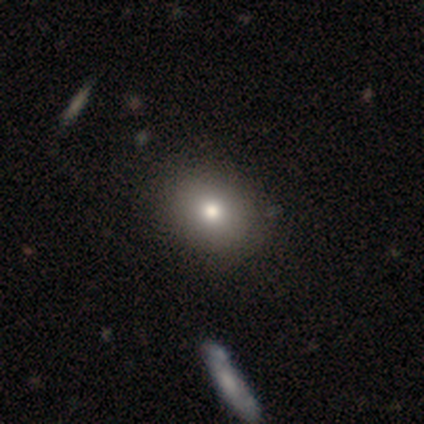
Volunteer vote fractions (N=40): Smooth or featured? 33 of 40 (82%) said smooth. How rounded? 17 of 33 (52%) said in between. Merging? 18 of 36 (50%) said none.